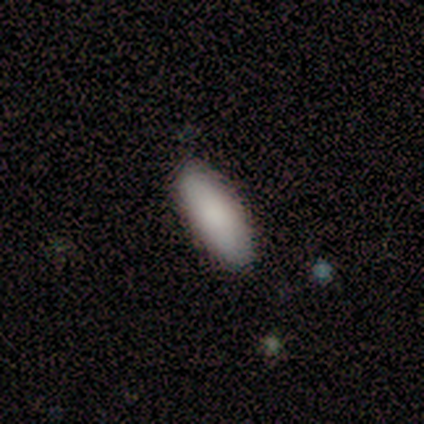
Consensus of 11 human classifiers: Smooth or featured? smooth (100%)
How rounded? in between (82%)
Merging? none (82%)